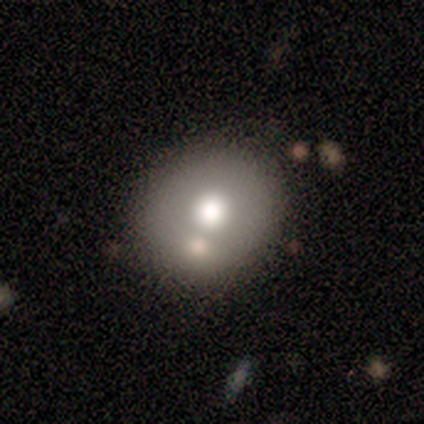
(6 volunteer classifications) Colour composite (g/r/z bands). It shows a smooth galaxy with no disk features (50%) that is round (100%). Merging: none (50%).